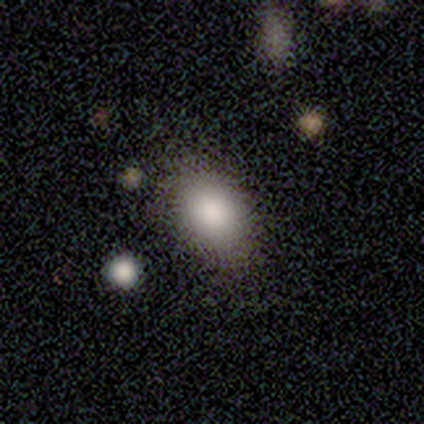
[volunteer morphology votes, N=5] A smooth galaxy with no disk features (100%) that is in between round and cigar-shaped (80%). Merging: none (80%).